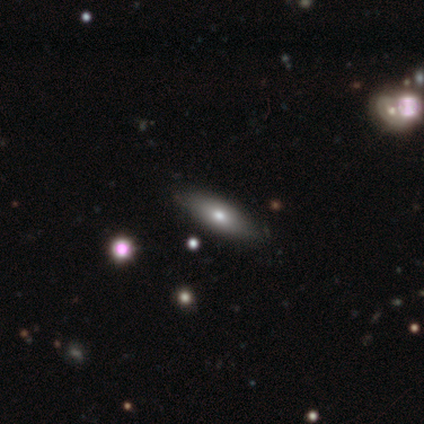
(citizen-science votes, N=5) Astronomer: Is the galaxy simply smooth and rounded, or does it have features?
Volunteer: smooth — 80%.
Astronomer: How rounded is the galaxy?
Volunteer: in between — 75%.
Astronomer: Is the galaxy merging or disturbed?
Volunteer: none — 80%.